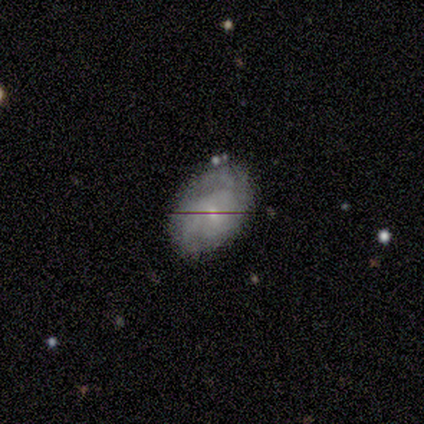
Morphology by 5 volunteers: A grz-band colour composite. It shows a featured or disk galaxy (100%) with a weak bar (60%), 3 (40%, tied with can't tell) medium (80%) spiral arms (100%) and a small central bulge (100%). Merging: none (100%).